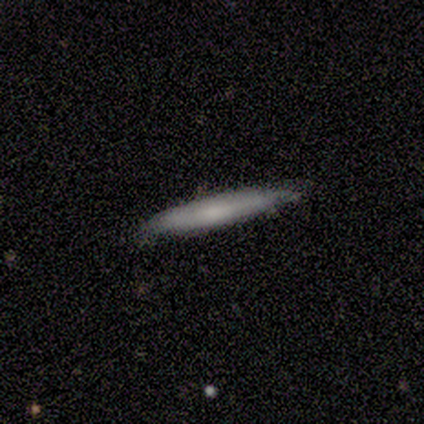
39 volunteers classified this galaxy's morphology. A smooth galaxy with no disk features (85%) that is cigar-shaped (97%). Merging: none (92%).